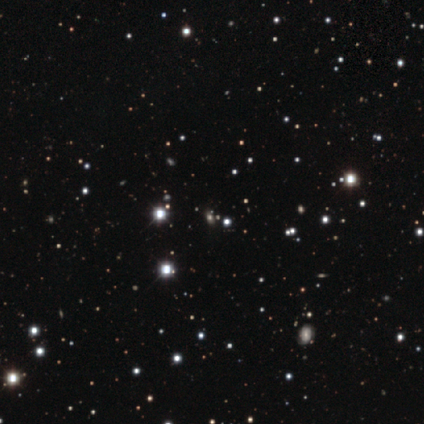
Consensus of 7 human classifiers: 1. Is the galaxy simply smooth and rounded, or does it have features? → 86% star or artifact, 14% smooth, 0% featured or disk.